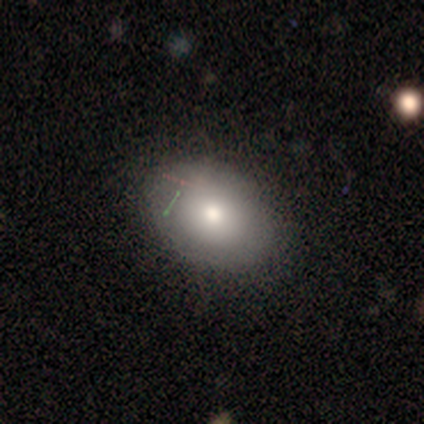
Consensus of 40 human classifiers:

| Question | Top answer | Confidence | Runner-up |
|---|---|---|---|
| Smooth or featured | smooth | 65% | featured or disk (28%) |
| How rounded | in between | 69% | round (31%) |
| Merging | none | 84% | minor disturbance (14%) |